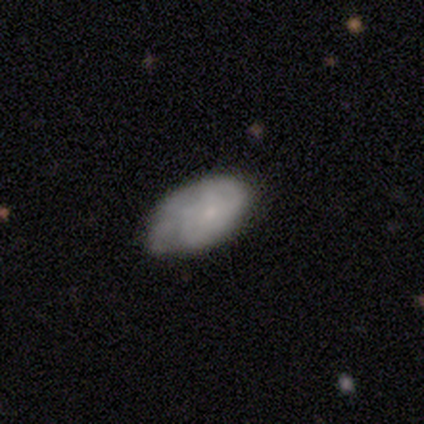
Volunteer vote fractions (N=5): This is likely a smooth galaxy (60%). How rounded: clearly in between (100%). Merging: marginally none (40%, tied with major disturbance).